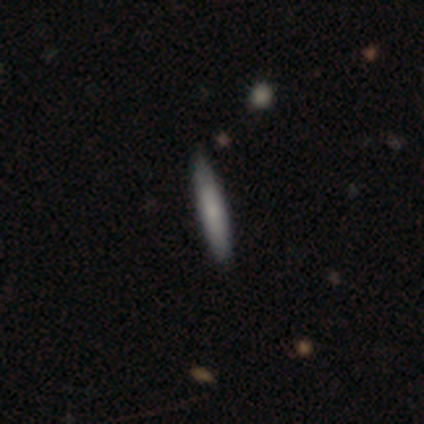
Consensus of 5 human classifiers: A smooth galaxy with no disk features (80%) that is cigar-shaped (100%).

Vote fractions:
- Smooth or featured? smooth: 80% / featured or disk: 20% / star or artifact: 0%
- How rounded? cigar-shaped: 100% / round: 0% / in between: 0%
- Merging? none: 100% / minor disturbance: 0% / major disturbance: 0% / merger: 0%